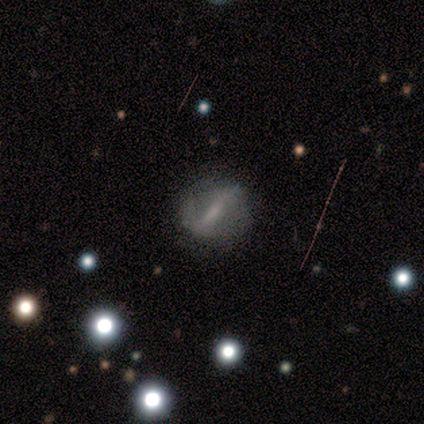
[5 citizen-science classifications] Smooth or featured?
  - featured or disk: 100% *
  - smooth: 0%
  - star or artifact: 0%
Edge-on disk?
  - no: 60% *
  - yes: 40%
Bar?
  - strong: 67% *
  - weak: 33%
  - no: 0%
Spiral arms?
  - yes: 100% *
  - no: 0%
Spiral winding?
  - loose: 67% *
  - medium: 33%
  - tight: 0%
Spiral arm count?
  - 2: 67% *
  - 1: 33%
  - 3: 0%
  - 4: 0%
  - more than 4: 0%
  - can't tell: 0%
Bulge size?
  - none: 100% *
  - dominant: 0%
  - large: 0%
  - moderate: 0%
  - small: 0%
Merging?
  - none: 100% *
  - minor disturbance: 0%
  - major disturbance: 0%
  - merger: 0%